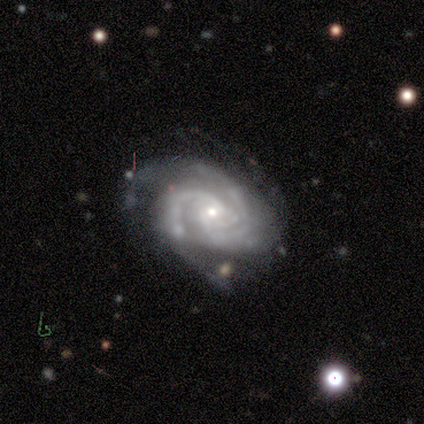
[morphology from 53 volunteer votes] type=featured or disk (92%); edge-on=no (100%); bar=no (71%); spiral arms=yes (98%); winding=tight (54%); arm count=3 (46%); bulge=small (69%); merging=none (60%).